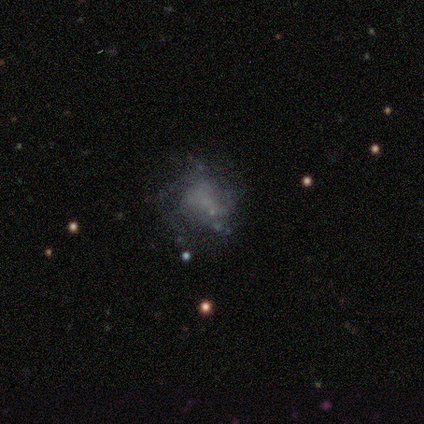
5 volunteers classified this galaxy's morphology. This is likely a featured or disk galaxy (60%). It is clearly not viewed edge-on (100%). Bar: clearly no (100%). Spiral arm pattern: likely no (67%). Central bulge: clearly none (100%). Merging: likely major disturbance (60%).